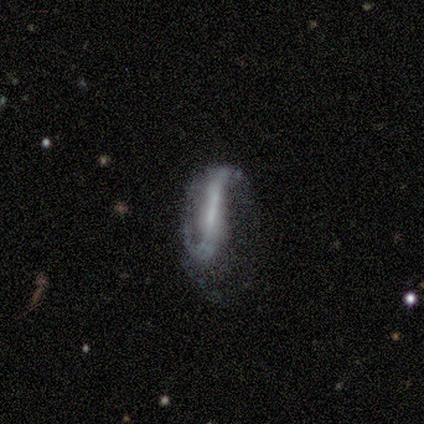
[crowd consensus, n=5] Smooth or featured?
  - featured or disk: 80% *
  - smooth: 20%
  - star or artifact: 0%
Edge-on disk?
  - no: 100% *
  - yes: 0%
Bar?
  - strong: 50% *
  - weak: 25%
  - no: 25%
Spiral arms?
  - yes: 100% *
  - no: 0%
Spiral winding?
  - loose: 75% *
  - medium: 25%
  - tight: 0%
Spiral arm count?
  - 2: 100% *
  - 1: 0%
  - 3: 0%
  - 4: 0%
  - more than 4: 0%
  - can't tell: 0%
Bulge size?
  - small: 50% * (tied)
  - none: 50% * (tied)
  - dominant: 0%
  - large: 0%
  - moderate: 0%
Merging?
  - minor disturbance: 80% *
  - none: 20%
  - major disturbance: 0%
  - merger: 0%